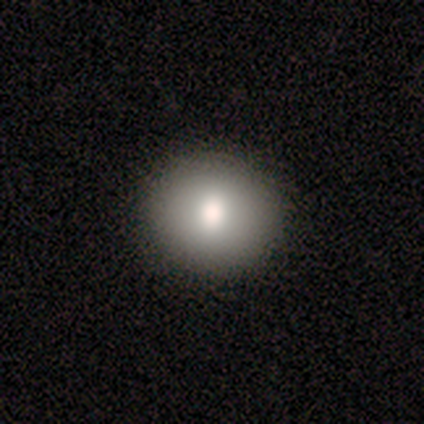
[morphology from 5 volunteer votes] Smooth or featured: smooth — 60% (star or artifact — 40%)
How rounded: round — 100%
Merging: none — 100%